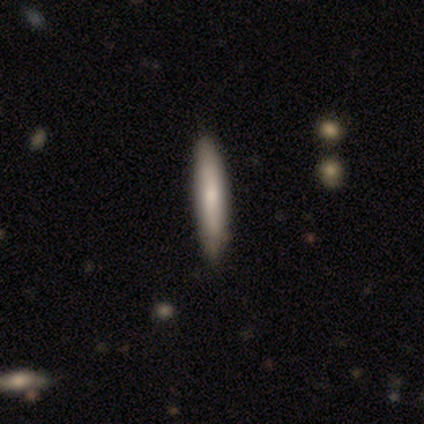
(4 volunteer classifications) smooth-or-featured: smooth: 75% | featured or disk: 25% | star or artifact: 0%
  how-rounded: cigar-shaped: 67% | in between: 33% | round: 0%
  merging: none: 100% | minor disturbance: 0% | major disturbance: 0% | merger: 0%